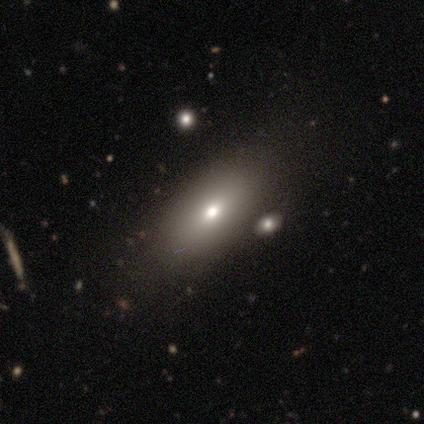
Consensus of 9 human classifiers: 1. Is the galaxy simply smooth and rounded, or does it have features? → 67% smooth, 22% star or artifact, 11% featured or disk.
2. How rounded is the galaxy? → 100% in between, 0% round, 0% cigar-shaped.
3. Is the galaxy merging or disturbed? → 100% none, 0% minor disturbance, 0% major disturbance, 0% merger.